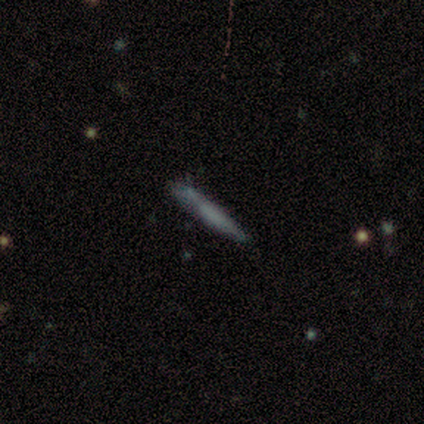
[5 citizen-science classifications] smooth-or-featured: featured or disk: 80% | smooth: 20% | star or artifact: 0%
  disk-edge-on: yes: 50% (tied) | no: 50% (tied)
    edge-on-bulge: boxy: 50% (tied) | rounded: 50% (tied) | none: 0%
  merging: none: 100% | minor disturbance: 0% | major disturbance: 0% | merger: 0%